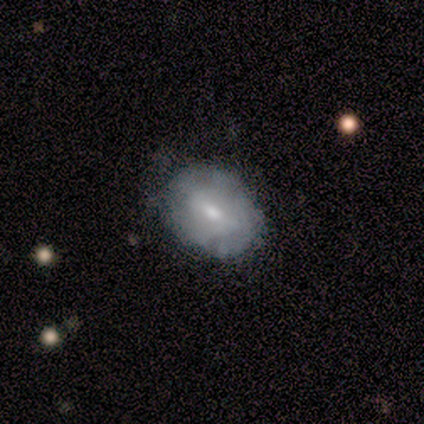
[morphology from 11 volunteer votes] Smooth or featured? featured or disk (64%)
Edge-on disk? no (100%)
Bar? weak (71%)
Spiral arms? yes (57%)
Spiral winding? tight (100%)
Spiral arm count? can't tell (75%)
Bulge size? small (86%)
Merging? none (73%)